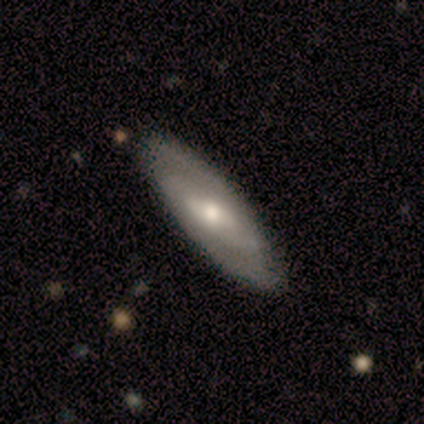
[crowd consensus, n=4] Smooth or featured?
  - smooth: 50% *
  - featured or disk: 25%
  - star or artifact: 25%
How rounded?
  - in between: 50% * (tied)
  - cigar-shaped: 50% * (tied)
  - round: 0%
Merging?
  - none: 67% *
  - minor disturbance: 33%
  - major disturbance: 0%
  - merger: 0%